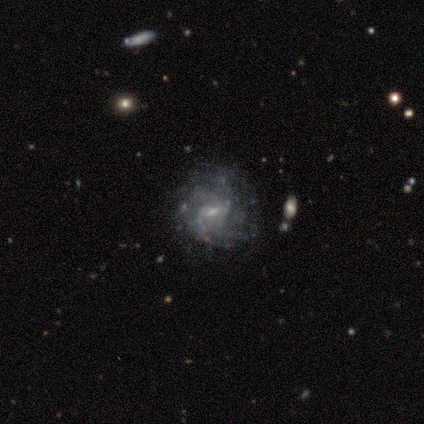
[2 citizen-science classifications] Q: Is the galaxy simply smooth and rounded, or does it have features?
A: featured or disk — 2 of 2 (100%).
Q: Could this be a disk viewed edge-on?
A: no — 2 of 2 (100%).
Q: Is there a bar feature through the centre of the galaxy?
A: weak — 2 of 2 (100%).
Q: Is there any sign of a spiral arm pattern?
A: yes — 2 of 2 (100%).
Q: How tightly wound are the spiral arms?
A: tight — 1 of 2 (50%, tied with medium).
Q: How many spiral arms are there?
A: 4 — 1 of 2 (50%, tied with more than 4).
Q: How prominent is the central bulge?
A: moderate — 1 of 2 (50%, tied with small).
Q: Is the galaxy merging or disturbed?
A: none — 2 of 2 (100%).